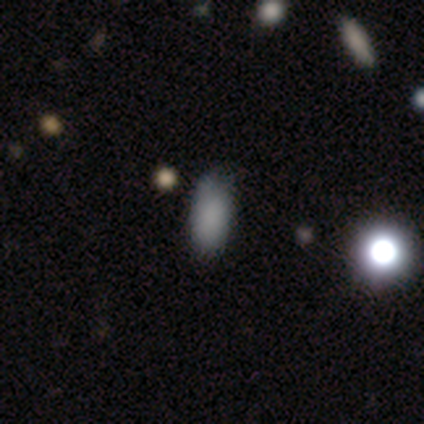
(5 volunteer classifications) Morphology: type=smooth (60%); roundness=in between (67%); merging=minor disturbance (67%).